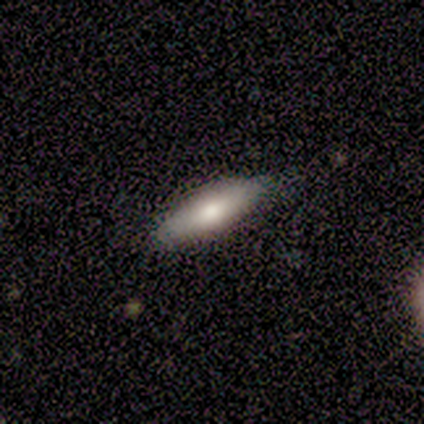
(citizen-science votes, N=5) A smooth galaxy with no disk features (80%) that is cigar-shaped (75%).

Vote fractions:
- Smooth or featured? smooth: 80% / featured or disk: 20% / star or artifact: 0%
- How rounded? cigar-shaped: 75% / in between: 25% / round: 0%
- Merging? none: 100% / minor disturbance: 0% / major disturbance: 0% / merger: 0%